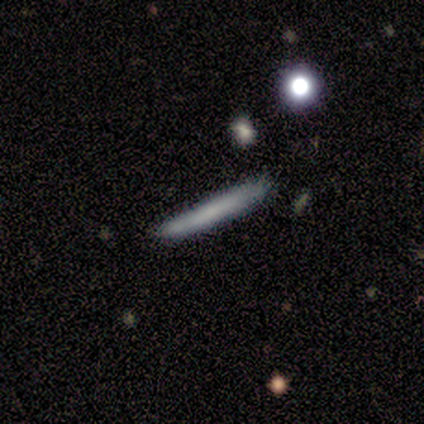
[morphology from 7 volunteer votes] Smooth or featured?
  - smooth: 43% * (tied)
  - featured or disk: 43% * (tied)
  - star or artifact: 14%
How rounded?
  - cigar-shaped: 67% *
  - in between: 33%
  - round: 0%
Merging?
  - none: 83% *
  - minor disturbance: 17%
  - major disturbance: 0%
  - merger: 0%